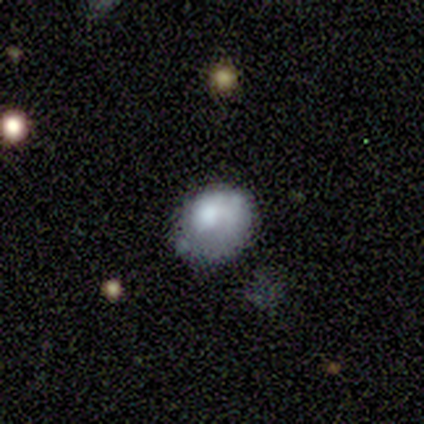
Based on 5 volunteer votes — Morphology: type=smooth (80%); roundness=round (75%); merging=none (80%).